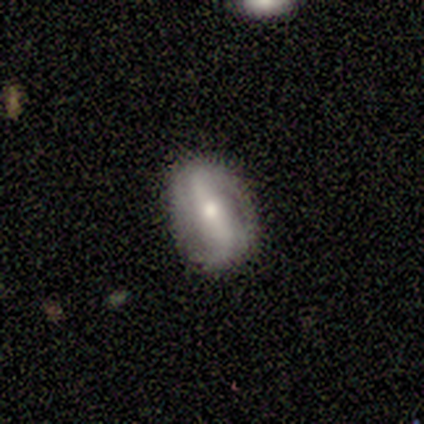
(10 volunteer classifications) Smooth or featured? 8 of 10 (80%) said featured or disk. Edge-on disk? 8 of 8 (100%) said no. Bar? 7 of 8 (88%) said strong. Spiral arms? 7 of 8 (88%) said yes. Spiral winding? 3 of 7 (43%, tied with medium) said tight. Spiral arm count? 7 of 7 (100%) said 2. Bulge size? 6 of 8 (75%) said moderate. Merging? 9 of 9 (100%) said none.